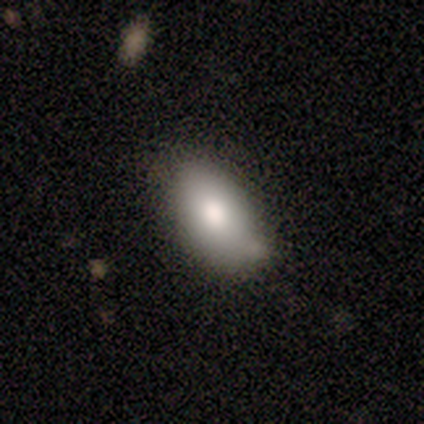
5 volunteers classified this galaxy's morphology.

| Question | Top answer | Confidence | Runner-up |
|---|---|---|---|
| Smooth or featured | smooth | 60% | featured or disk (40%) |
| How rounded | in between | 100% | — |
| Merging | none | 80% | minor disturbance (20%) |